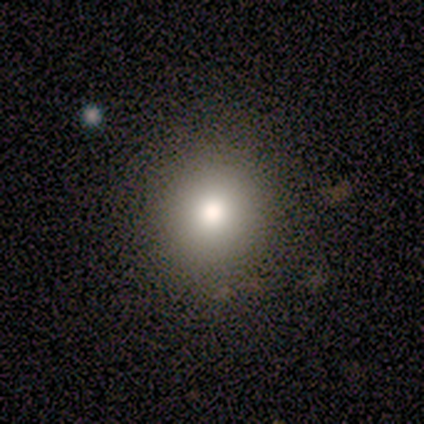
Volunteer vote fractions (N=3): Smooth or featured?
  - smooth: 100% *
  - featured or disk: 0%
  - star or artifact: 0%
How rounded?
  - round: 100% *
  - in between: 0%
  - cigar-shaped: 0%
Merging?
  - none: 100% *
  - minor disturbance: 0%
  - major disturbance: 0%
  - merger: 0%